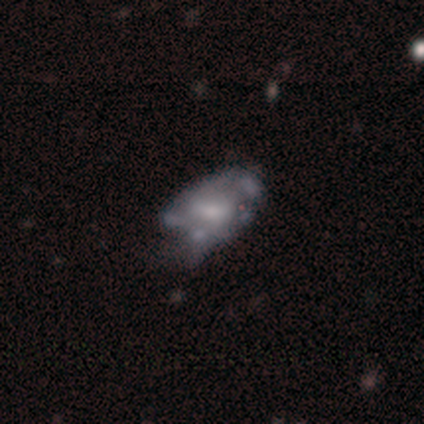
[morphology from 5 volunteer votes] smooth 60%, featured or disk 40%, star or artifact 0%. Down the decision tree: how rounded — in between (100%); merging — minor disturbance (60%).